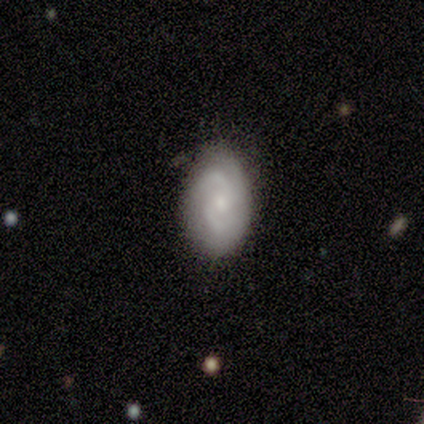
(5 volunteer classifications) smooth_or_featured: featured or disk (p=0.80) [alt: star or artifact p=0.20]
disk_edge_on: no (p=1.00)
bar: weak (p=0.50) [tied with: no p=0.50]
has_spiral_arms: yes (p=1.00)
spiral_winding: medium (p=0.50) [alt: tight p=0.25]
spiral_arm_count: 2 (p=0.50) [tied with: 3 p=0.50]
bulge_size: moderate (p=0.50) [alt: dominant p=0.25]
merging: none (p=0.75) [alt: major disturbance p=0.25]